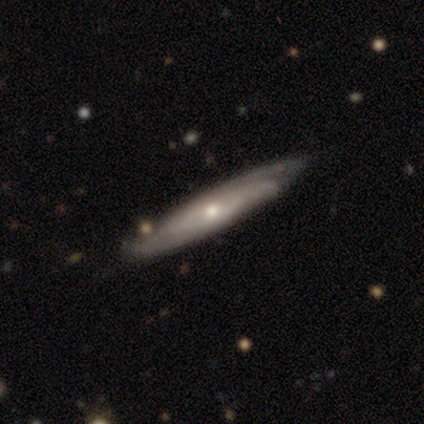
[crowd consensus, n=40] Volunteers were most divided on "edge-on bulge": rounded: 67%, none: 33%, boxy: 0%. More confident: edge-on disk — yes (81%); merging — none (74%); smooth or featured — featured or disk (65%).